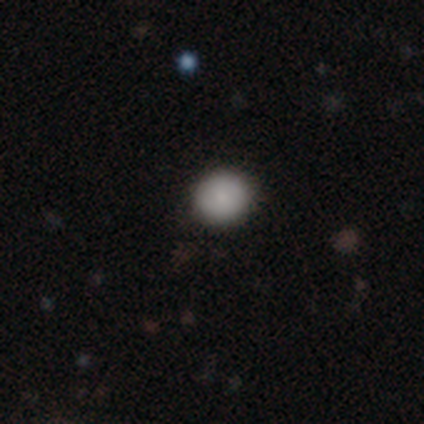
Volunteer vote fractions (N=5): This is clearly a smooth galaxy (100%). How rounded: clearly round (100%). Merging: clearly none (100%).